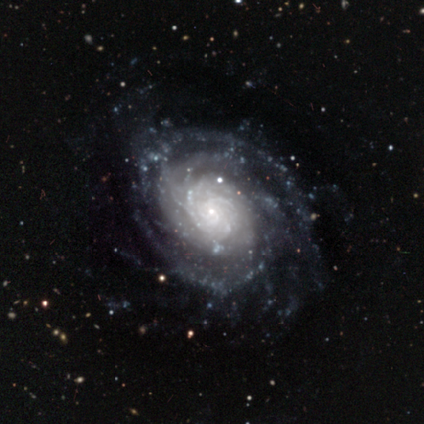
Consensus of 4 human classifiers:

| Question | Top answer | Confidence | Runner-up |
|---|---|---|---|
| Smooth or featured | featured or disk | 100% | — |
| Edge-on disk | no | 100% | — |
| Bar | weak | 50% | strong (25%) |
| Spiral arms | yes | 100% | — |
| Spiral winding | medium | 75% | tight (25%) |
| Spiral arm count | can't tell | 50% | 3 (25%) |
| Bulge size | small | 100% | — |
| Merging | none | 100% | — |